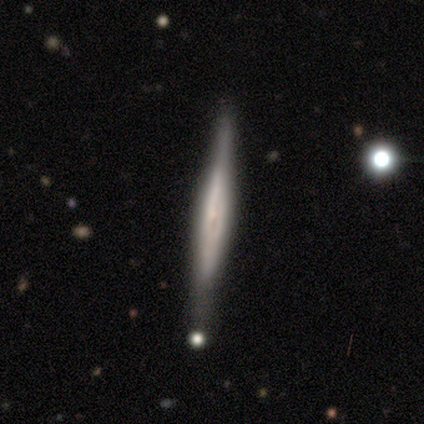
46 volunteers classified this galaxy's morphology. Overall: featured or disk (72%). Edge-on disk: yes (100%). Edge-on bulge: none (39%, tied with rounded). Merging: none (80%).